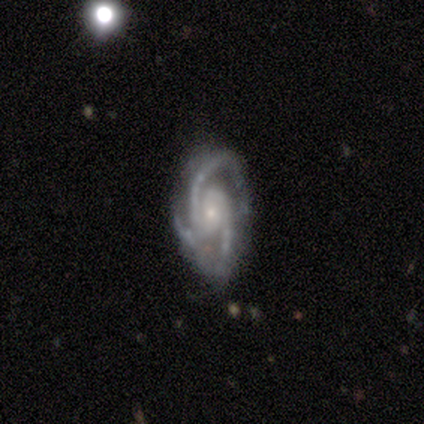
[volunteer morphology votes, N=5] type=featured or disk (100%); edge-on=no (100%); bar=weak (40%, tied with no); spiral arms=yes (100%); winding=medium (60%); arm count=3 (60%); bulge=small (80%); merging=none (60%).